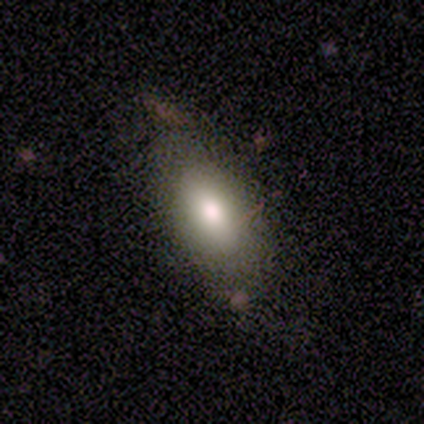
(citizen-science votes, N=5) Smooth or featured?
  - smooth: 60% *
  - featured or disk: 40%
  - star or artifact: 0%
How rounded?
  - in between: 100% *
  - round: 0%
  - cigar-shaped: 0%
Merging?
  - none: 80% *
  - major disturbance: 20%
  - minor disturbance: 0%
  - merger: 0%